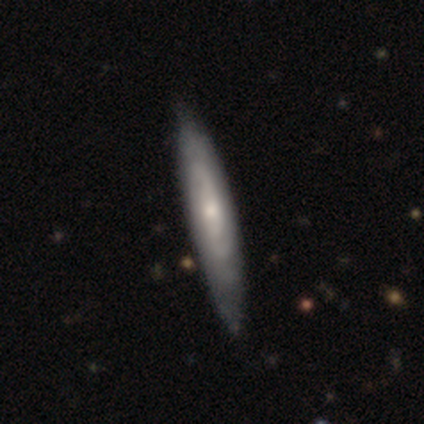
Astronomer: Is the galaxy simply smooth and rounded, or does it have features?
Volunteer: featured or disk — 68%.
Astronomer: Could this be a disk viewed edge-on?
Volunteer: no — 67%.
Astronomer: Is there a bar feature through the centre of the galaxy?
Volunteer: no — 72%.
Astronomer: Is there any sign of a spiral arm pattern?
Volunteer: yes — 89%.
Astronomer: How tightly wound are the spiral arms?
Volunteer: tight — 62%.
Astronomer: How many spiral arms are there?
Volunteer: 2 — 50% (runner-up: can't tell, 31%).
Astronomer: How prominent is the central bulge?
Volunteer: small — 44% (runner-up: moderate, 39%).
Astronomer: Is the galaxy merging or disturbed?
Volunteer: none — 56%.